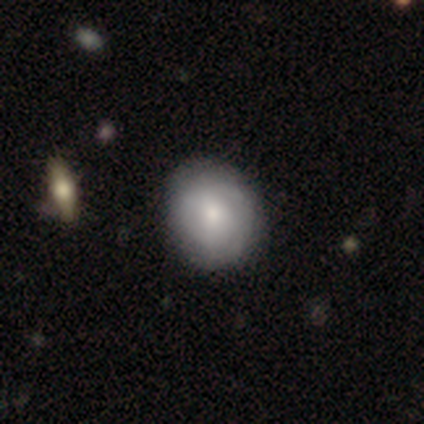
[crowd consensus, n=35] Smooth or featured: smooth — 69% (featured or disk — 31%)
How rounded: round — 71% (in between — 29%)
Merging: none — 63% (minor disturbance — 11%)